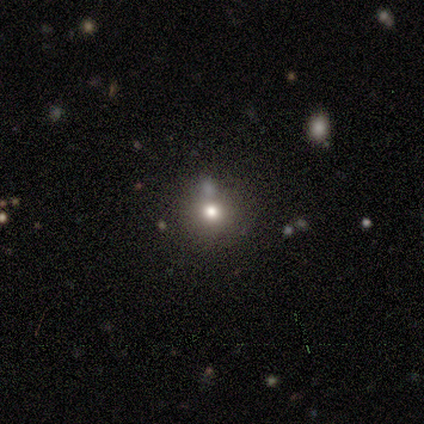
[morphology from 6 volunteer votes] Smooth or featured? 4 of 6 (67%) said smooth. How rounded? 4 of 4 (100%) said round. Merging? 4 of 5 (80%) said none.